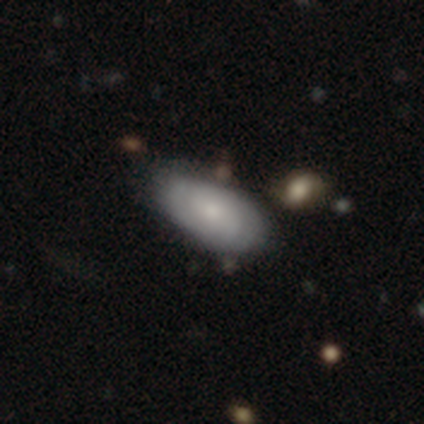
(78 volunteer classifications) Smooth or featured? smooth (55%)
How rounded? in between (95%)
Merging? none (37%)